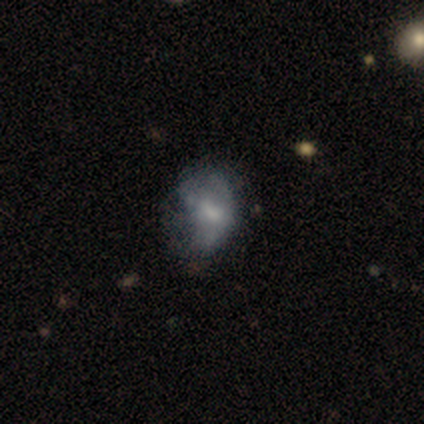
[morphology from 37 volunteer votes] This appears to be a featured or disk galaxy (59%) with no bar (68%), no spiral arms (77%) and a small central bulge (50%). Merging: minor disturbance (45%).